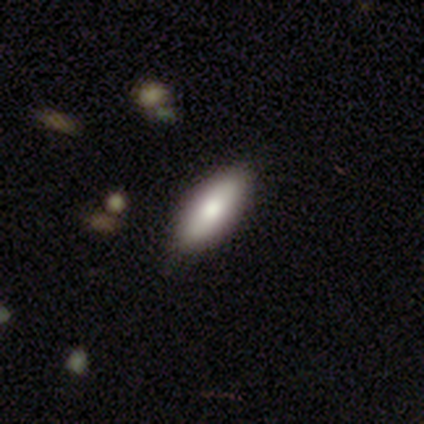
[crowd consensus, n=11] This is likely a smooth galaxy (64%). How rounded: possibly in between (57%). Merging: clearly none (80%).